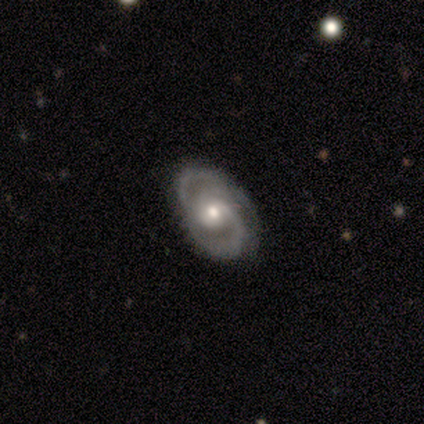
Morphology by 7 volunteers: Smooth or featured?
  - featured or disk: 86% *
  - star or artifact: 14%
  - smooth: 0%
Edge-on disk?
  - no: 100% *
  - yes: 0%
Bar?
  - no: 50% *
  - weak: 33%
  - strong: 17%
Spiral arms?
  - yes: 100% *
  - no: 0%
Spiral winding?
  - tight: 50% * (tied)
  - medium: 50% * (tied)
  - loose: 0%
Spiral arm count?
  - 3: 67% *
  - 2: 33%
  - 1: 0%
  - 4: 0%
  - more than 4: 0%
  - can't tell: 0%
Bulge size?
  - moderate: 50% * (tied)
  - small: 50% * (tied)
  - dominant: 0%
  - large: 0%
  - none: 0%
Merging?
  - none: 83% *
  - minor disturbance: 17%
  - major disturbance: 0%
  - merger: 0%